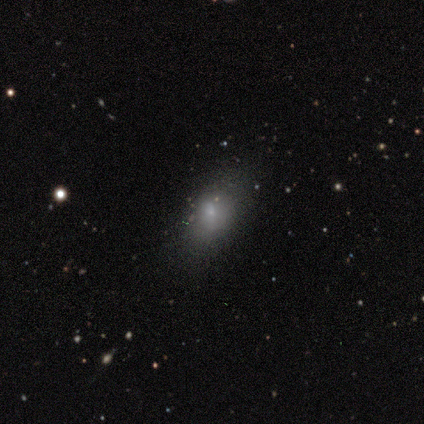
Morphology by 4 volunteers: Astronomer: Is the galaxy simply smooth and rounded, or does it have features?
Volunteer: smooth — 75%.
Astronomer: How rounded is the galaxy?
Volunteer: in between — 100%.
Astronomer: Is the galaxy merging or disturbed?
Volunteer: none — 75%.